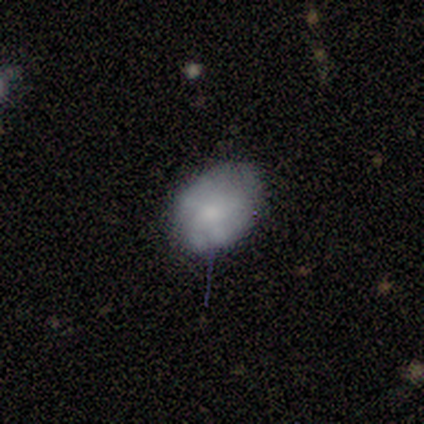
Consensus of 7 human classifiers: A smooth galaxy with no disk features (86%) that is round (50%, tied with in between).

Vote fractions:
- Smooth or featured? smooth: 86% / featured or disk: 14% / star or artifact: 0%
- How rounded? round: 50% (tied) / in between: 50% (tied) / cigar-shaped: 0%
- Merging? none: 57% / major disturbance: 29% / minor disturbance: 14% / merger: 0%